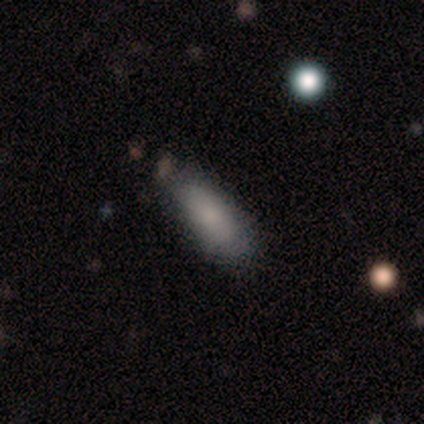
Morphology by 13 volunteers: smooth 85%, featured or disk 15%, star or artifact 0%. Down the decision tree: how rounded — in between (82%); merging — none (62%).